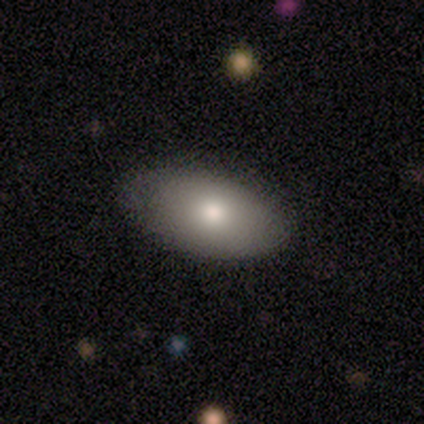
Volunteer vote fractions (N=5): smooth_or_featured: smooth (p=0.80) [alt: featured or disk p=0.20]
how_rounded: in between (p=0.75) [alt: round p=0.25]
merging: none (p=0.80) [alt: minor disturbance p=0.20]